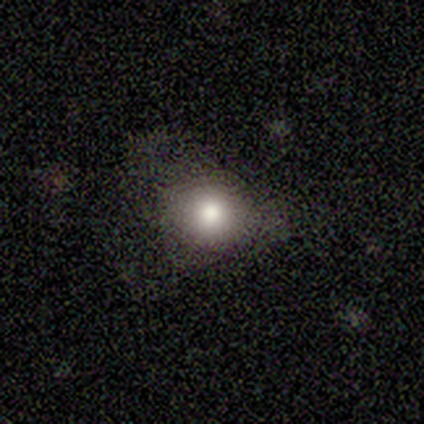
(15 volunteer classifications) Q: Smooth or featured?
A: smooth (87%); runner-up: featured or disk (7%)
Q: How rounded?
A: round (54%); runner-up: in between (46%)
Q: Merging?
A: none (71%); runner-up: minor disturbance (21%)